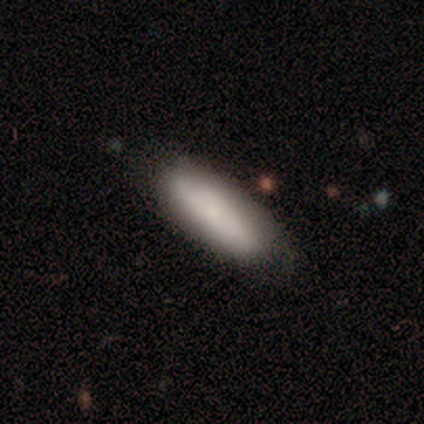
Volunteers were most divided on "merging" (2-way tie): none: 50%, minor disturbance: 50%, major disturbance: 0%, merger: 0%. More confident: how rounded — in between (100%); smooth or featured — smooth (75%).